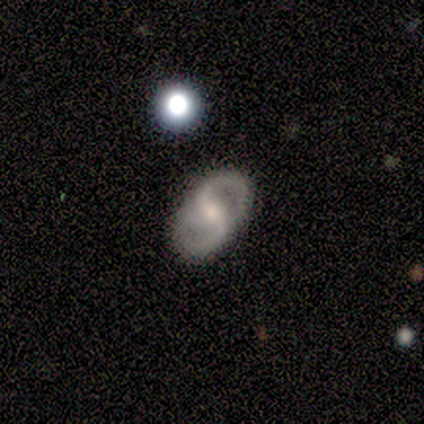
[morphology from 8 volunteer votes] type=featured or disk (62%); edge-on=no (100%); bar=strong (80%); spiral arms=yes (100%); winding=medium (40%, tied with loose); arm count=2 (80%); bulge=moderate (60%); merging=none (86%).